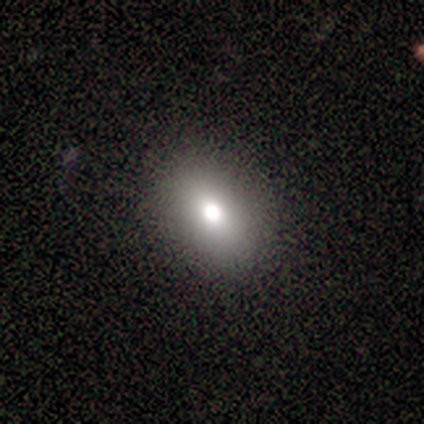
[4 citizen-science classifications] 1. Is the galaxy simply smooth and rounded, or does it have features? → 75% smooth, 25% star or artifact, 0% featured or disk.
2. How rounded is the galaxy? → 67% in between, 33% round, 0% cigar-shaped.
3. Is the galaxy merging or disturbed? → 100% none, 0% minor disturbance, 0% major disturbance, 0% merger.